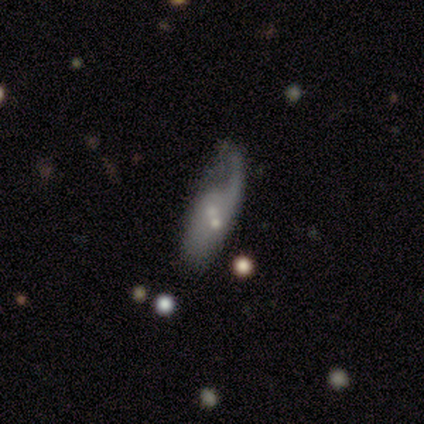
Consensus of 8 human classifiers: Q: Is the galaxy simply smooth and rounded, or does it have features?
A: featured or disk — 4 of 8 (50%).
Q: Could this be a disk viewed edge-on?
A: no — 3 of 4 (75%).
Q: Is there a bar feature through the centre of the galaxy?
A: no — 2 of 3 (67%).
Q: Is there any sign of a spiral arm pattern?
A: yes — 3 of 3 (100%).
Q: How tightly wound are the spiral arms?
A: loose — 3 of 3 (100%).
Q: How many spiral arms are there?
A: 1 — 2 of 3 (67%).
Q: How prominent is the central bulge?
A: small — 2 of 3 (67%).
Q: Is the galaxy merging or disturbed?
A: minor disturbance — 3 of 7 (43%).